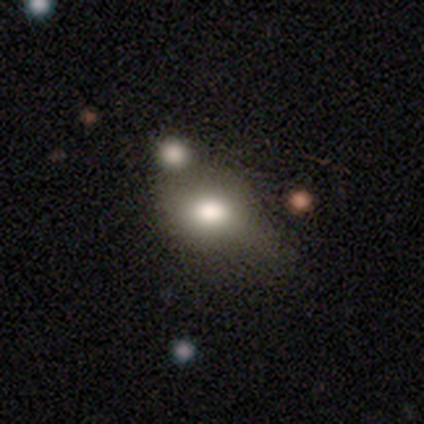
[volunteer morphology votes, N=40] smooth 80%, featured or disk 12%, star or artifact 8%. Down the decision tree: how rounded — in between (75%); merging — none (41%).